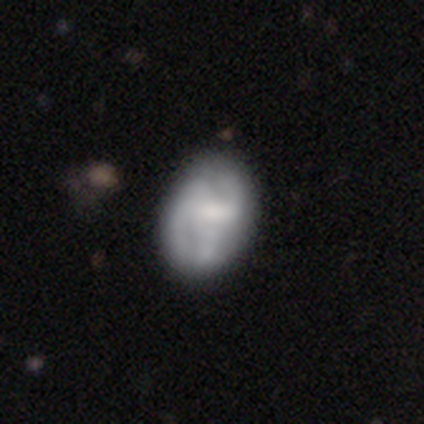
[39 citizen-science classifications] A featured or disk galaxy (62%) with no bar (46%), medium (56%) spiral arms (75%) and a moderate central bulge (42%). Merging: none (43%).